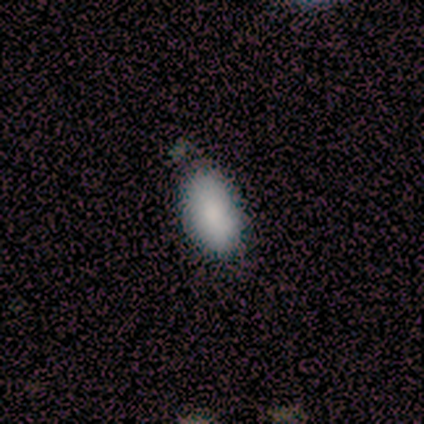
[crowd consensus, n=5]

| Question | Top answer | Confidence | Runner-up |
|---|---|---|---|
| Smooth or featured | smooth | 100% | — |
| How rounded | in between | 100% | — |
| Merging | none | 40% | tied: merger (40%) |